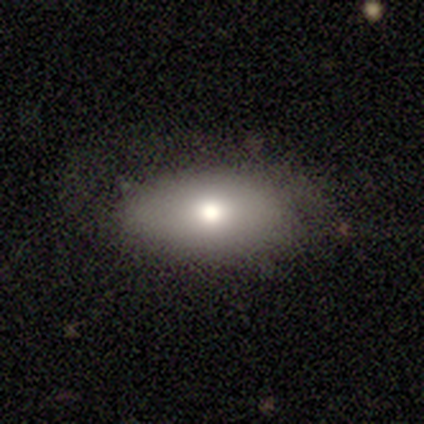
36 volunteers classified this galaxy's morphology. Q: Smooth or featured?
A: smooth (56%); runner-up: featured or disk (33%)
Q: How rounded?
A: in between (85%); runner-up: cigar-shaped (10%)
Q: Merging?
A: none (62%); runner-up: minor disturbance (25%)